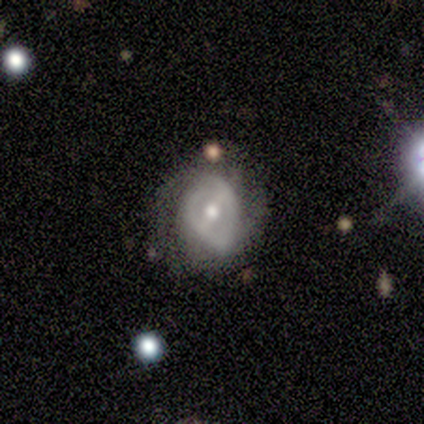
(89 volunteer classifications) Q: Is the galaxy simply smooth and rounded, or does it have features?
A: featured or disk — 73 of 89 (82%).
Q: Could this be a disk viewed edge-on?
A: no — 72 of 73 (99%).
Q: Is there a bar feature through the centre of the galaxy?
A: weak — 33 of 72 (46%).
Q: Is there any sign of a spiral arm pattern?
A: yes — 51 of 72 (71%).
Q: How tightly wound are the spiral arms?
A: tight — 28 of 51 (55%).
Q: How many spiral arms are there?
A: can't tell — 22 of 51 (43%).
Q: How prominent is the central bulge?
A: moderate — 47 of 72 (65%).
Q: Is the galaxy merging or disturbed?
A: minor disturbance — 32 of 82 (39%).